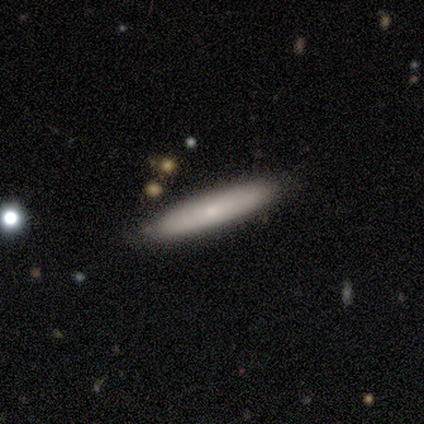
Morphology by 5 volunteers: type=smooth (80%); roundness=cigar-shaped (100%); merging=none (60%).